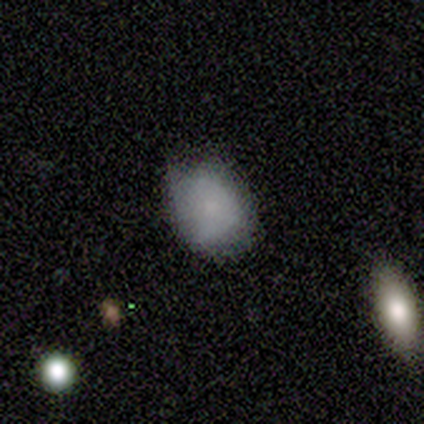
Smooth or featured?
  - smooth: 80% *
  - featured or disk: 20%
  - star or artifact: 0%
How rounded?
  - round: 50% * (tied)
  - in between: 50% * (tied)
  - cigar-shaped: 0%
Merging?
  - none: 60% *
  - minor disturbance: 40%
  - major disturbance: 0%
  - merger: 0%